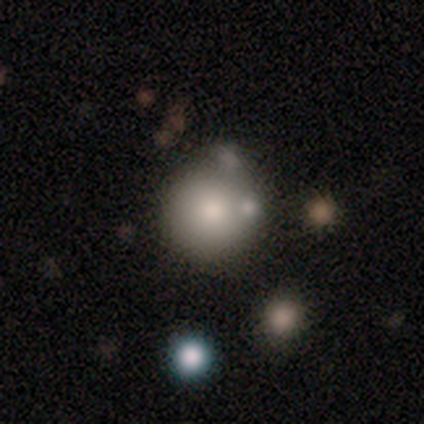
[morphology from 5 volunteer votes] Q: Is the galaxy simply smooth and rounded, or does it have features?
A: smooth — 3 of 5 (60%).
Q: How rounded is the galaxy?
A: round — 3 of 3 (100%).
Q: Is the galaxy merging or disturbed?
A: none — 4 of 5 (80%).